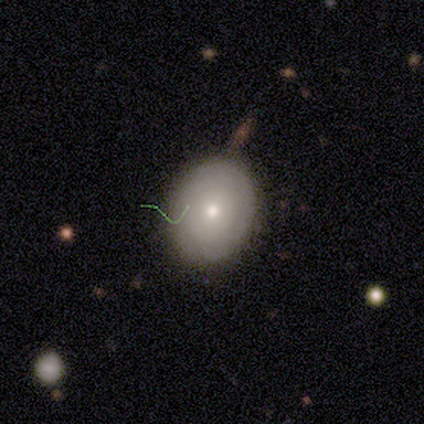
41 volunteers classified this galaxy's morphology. A smooth galaxy with no disk features (76%) that is round (55%).

Vote fractions:
- Smooth or featured? smooth: 76% / featured or disk: 17% / star or artifact: 7%
- How rounded? round: 55% / in between: 45% / cigar-shaped: 0%
- Merging? none: 74% / minor disturbance: 16% / major disturbance: 5% / merger: 5%